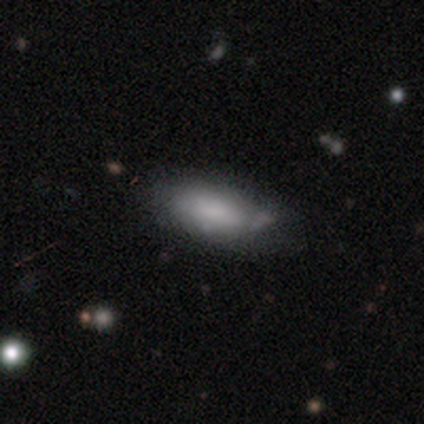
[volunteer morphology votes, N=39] type=smooth (74%); roundness=in between (90%); merging=none (47%).